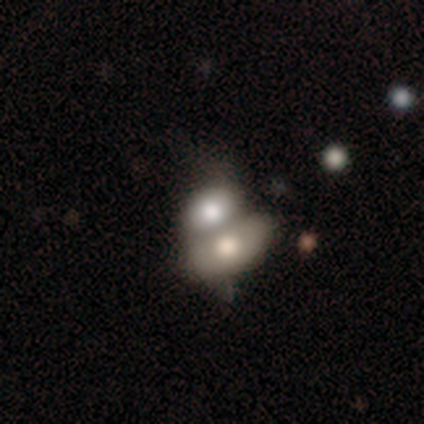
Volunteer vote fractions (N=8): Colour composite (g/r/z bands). It shows a smooth galaxy with no disk features (75%) that is in between round and cigar-shaped (83%). Merging: merger (75%).